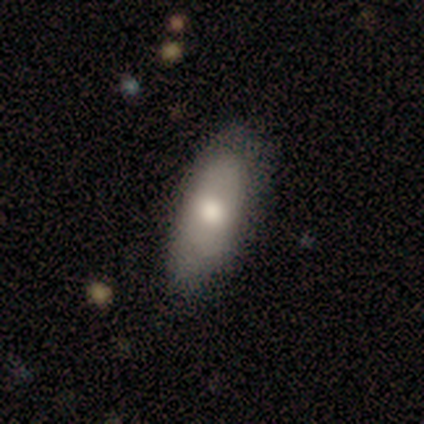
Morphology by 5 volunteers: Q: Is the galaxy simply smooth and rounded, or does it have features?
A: smooth — 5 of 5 (100%).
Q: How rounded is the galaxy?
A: in between — 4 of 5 (80%).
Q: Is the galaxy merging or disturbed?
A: none — 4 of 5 (80%).